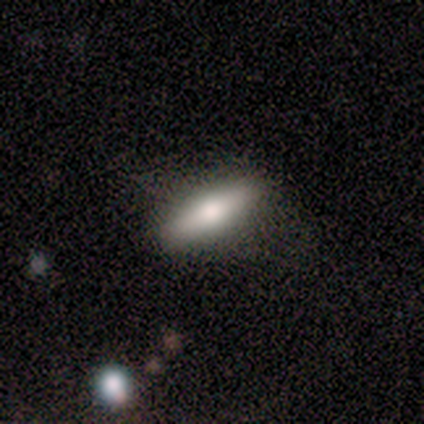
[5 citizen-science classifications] Overall: smooth (40%, tied with featured or disk). How rounded: in between (50%, tied with cigar-shaped). Merging: none (50%, tied with minor disturbance).